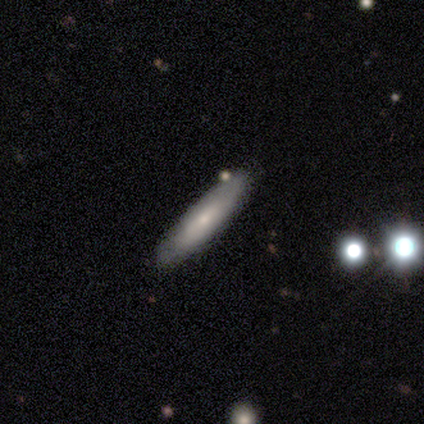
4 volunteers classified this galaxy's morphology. Q: Smooth or featured?
A: smooth (50%); tied with: featured or disk (50%)
Q: How rounded?
A: in between (50%); tied with: cigar-shaped (50%)
Q: Merging?
A: none (100%)